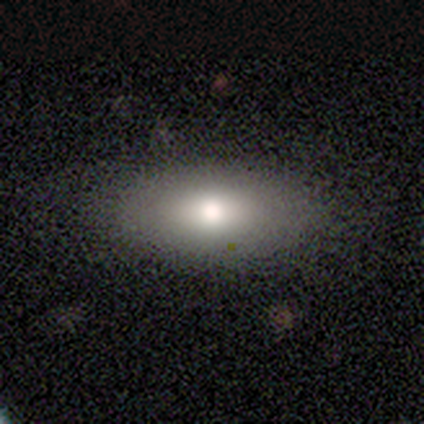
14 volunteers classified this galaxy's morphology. Smooth or featured? smooth (71%)
How rounded? in between (90%)
Merging? none (85%)